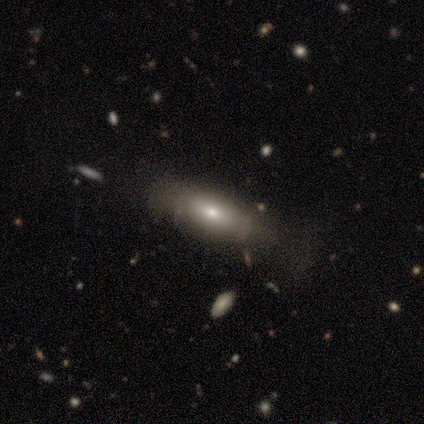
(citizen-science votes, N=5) Morphology: type=smooth (60%); roundness=cigar-shaped (67%); merging=none (60%).